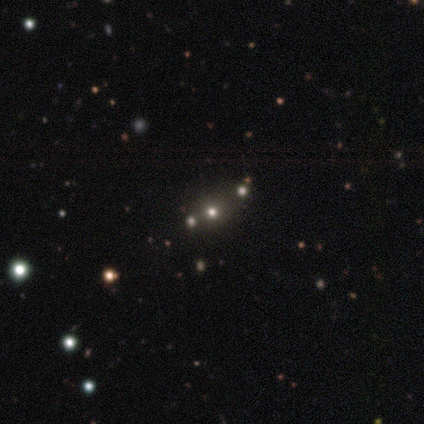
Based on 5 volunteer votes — Smooth or featured? smooth (40%, tied with star or artifact)
How rounded? round (100%)
Merging? none (67%)